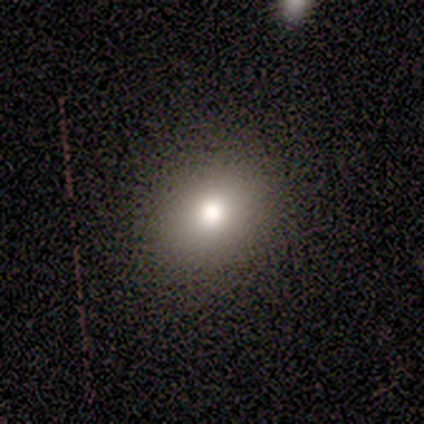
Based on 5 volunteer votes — Smooth or featured: smooth — 60% (featured or disk — 20%)
How rounded: in between — 67% (round — 33%)
Merging: none — 100%